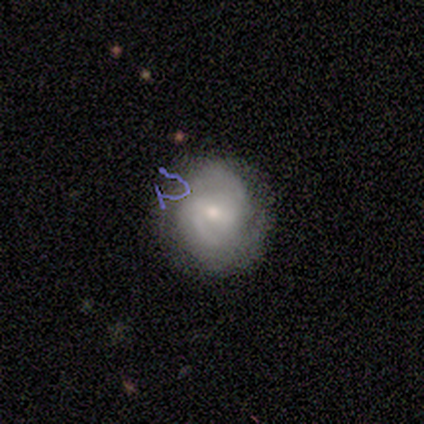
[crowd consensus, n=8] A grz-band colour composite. It shows a featured or disk galaxy (88%) with a weak bar (57%), 2 (71%) tight (57%) spiral arms (100%) and a moderate central bulge (71%). Merging: none (88%).